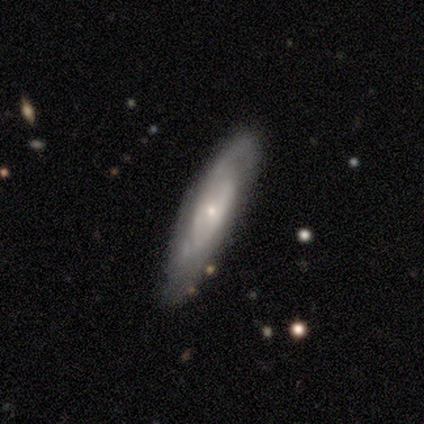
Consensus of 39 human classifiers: Morphology: type=featured or disk (77%); edge-on=no (60%); bar=no (72%); spiral arms=yes (78%); winding=medium (43%); arm count=2 (57%); bulge=small (83%); merging=none (73%).